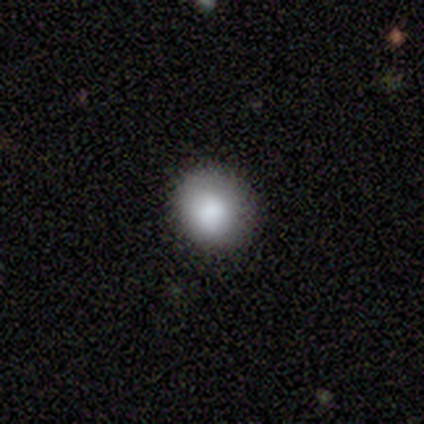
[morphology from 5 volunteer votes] This appears to be a smooth galaxy with no disk features (100%) that is round (100%). Merging: none (100%).